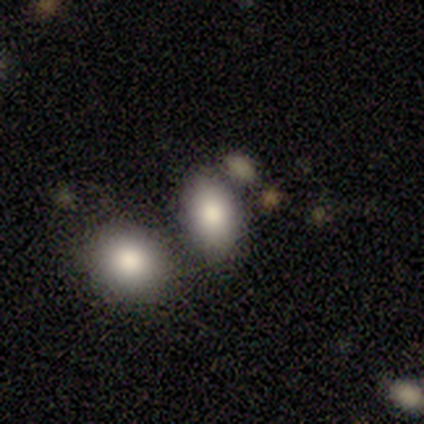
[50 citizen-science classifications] Overall: smooth (92%). How rounded: in between (93%). Merging: none (57%; merger 34%).